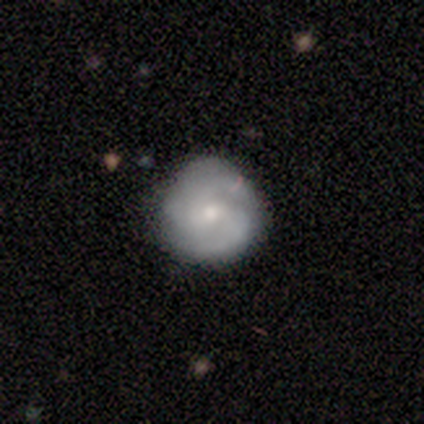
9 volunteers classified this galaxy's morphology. Q: Smooth or featured?
A: featured or disk (78%); runner-up: smooth (22%)
Q: Edge-on disk?
A: no (100%)
Q: Bar?
A: weak (43%); tied with: no (43%)
Q: Spiral arms?
A: yes (86%); runner-up: no (14%)
Q: Spiral winding?
A: tight (67%); runner-up: medium (17%)
Q: Spiral arm count?
A: 3 (50%); runner-up: can't tell (33%)
Q: Bulge size?
A: small (71%); runner-up: moderate (29%)
Q: Merging?
A: none (89%); runner-up: minor disturbance (11%)